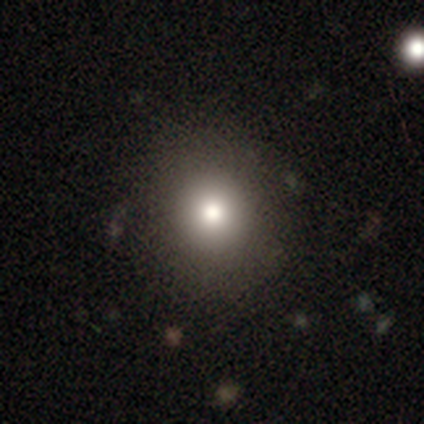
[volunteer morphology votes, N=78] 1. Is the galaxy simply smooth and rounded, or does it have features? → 78% smooth, 15% featured or disk, 6% star or artifact.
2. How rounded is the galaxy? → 92% round, 8% in between, 0% cigar-shaped.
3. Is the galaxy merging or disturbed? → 47% none, 3% merger, 1% major disturbance, 0% minor disturbance.